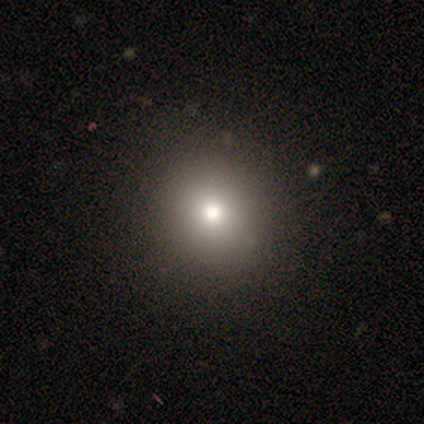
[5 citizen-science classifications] This appears to be a smooth galaxy with no disk features (80%) that is round (75%). Merging: none (80%).